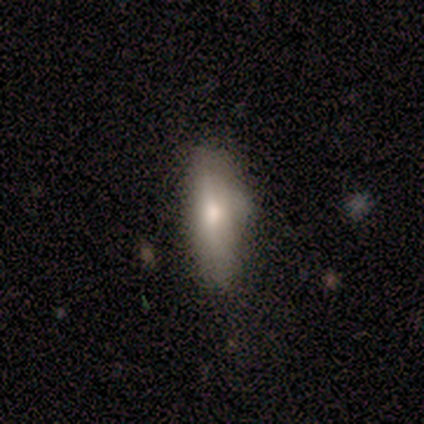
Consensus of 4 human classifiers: smooth 100%, featured or disk 0%, star or artifact 0%. Down the decision tree: how rounded — cigar-shaped (100%); merging — none (50%, tied with minor disturbance).